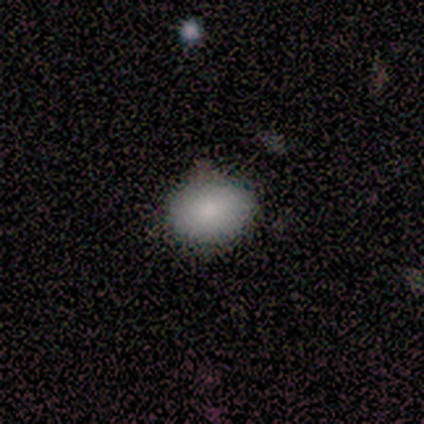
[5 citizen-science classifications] smooth_or_featured: smooth (p=1.00)
how_rounded: in between (p=0.60) [alt: round p=0.40]
merging: none (p=0.80) [alt: minor disturbance p=0.20]